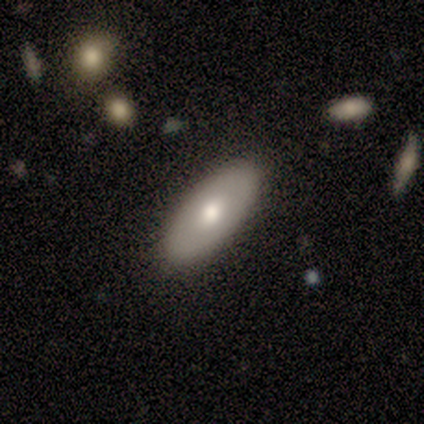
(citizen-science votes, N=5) Morphology: type=smooth (80%); roundness=in between (100%); merging=none (80%).